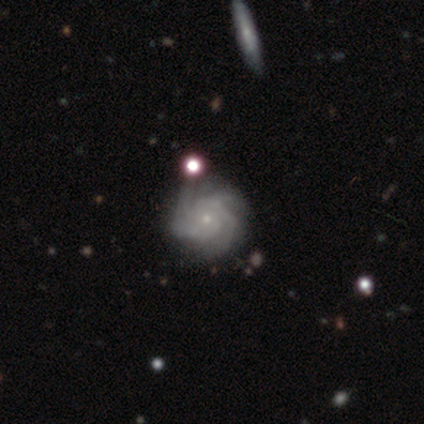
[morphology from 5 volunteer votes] Smooth or featured? 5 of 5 (100%) said featured or disk. Edge-on disk? 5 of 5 (100%) said no. Bar? 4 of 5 (80%) said no. Spiral arms? 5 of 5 (100%) said yes. Spiral winding? 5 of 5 (100%) said tight. Spiral arm count? 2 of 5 (40%) said 3. Bulge size? 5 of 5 (100%) said small. Merging? 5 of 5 (100%) said none.